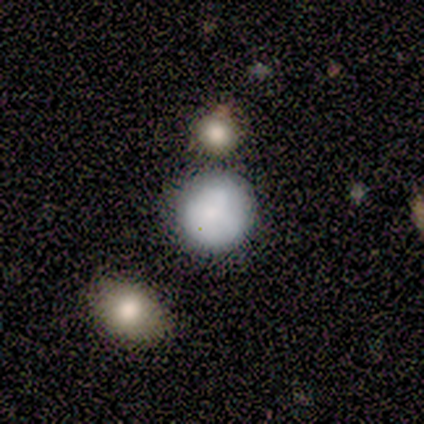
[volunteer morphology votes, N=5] Q: Smooth or featured?
A: smooth (80%); runner-up: featured or disk (20%)
Q: How rounded?
A: round (100%)
Q: Merging?
A: none (100%)